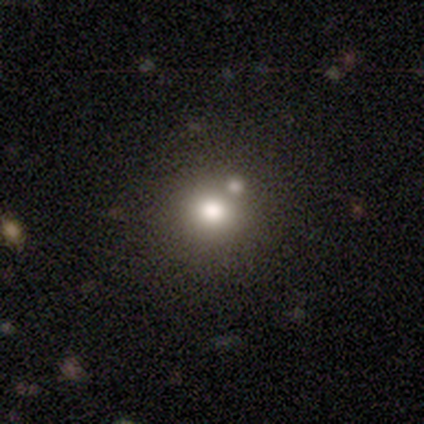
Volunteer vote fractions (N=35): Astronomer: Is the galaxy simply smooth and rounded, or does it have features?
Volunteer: smooth — 63%.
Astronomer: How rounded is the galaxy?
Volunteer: round — 95%.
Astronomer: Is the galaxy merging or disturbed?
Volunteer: none — 59%.